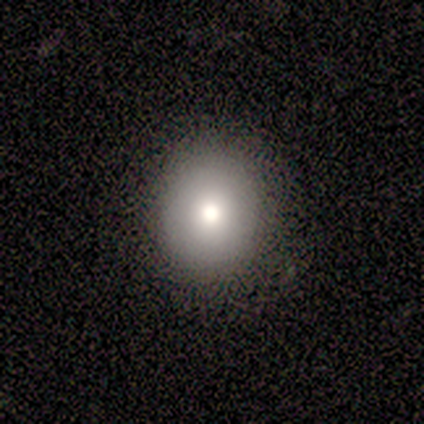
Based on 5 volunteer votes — Q: Smooth or featured?
A: smooth (80%); runner-up: featured or disk (20%)
Q: How rounded?
A: round (75%); runner-up: in between (25%)
Q: Merging?
A: none (80%); runner-up: major disturbance (20%)